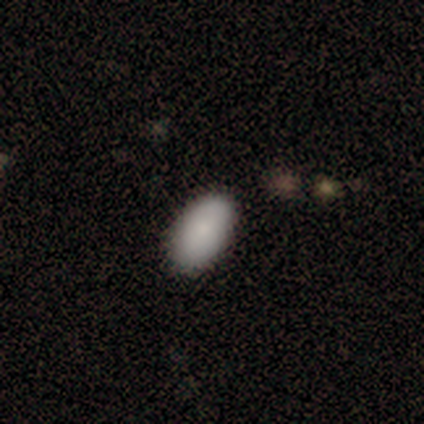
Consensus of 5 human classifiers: This is clearly a smooth galaxy (100%). How rounded: clearly in between (100%). Merging: likely none (60%).